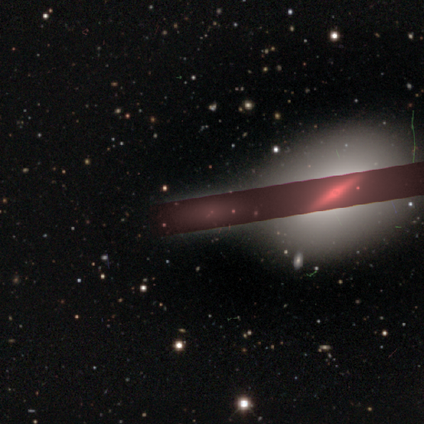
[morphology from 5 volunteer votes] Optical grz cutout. It shows a star or artifact, not a galaxy (60%).